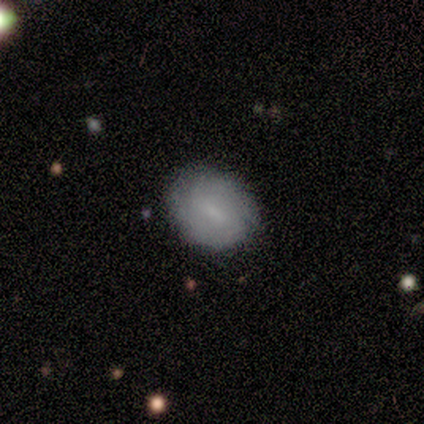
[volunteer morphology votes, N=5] smooth-or-featured: smooth: 60% | featured or disk: 40% | star or artifact: 0%
  how-rounded: in between: 67% | round: 33% | cigar-shaped: 0%
  merging: none: 80% | minor disturbance: 20% | major disturbance: 0% | merger: 0%